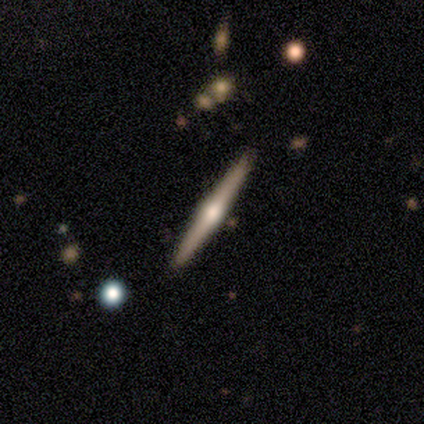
A featured or disk galaxy (80%) viewed edge-on (100%) with no central bulge (50%, tied with rounded). Merging: none (100%).